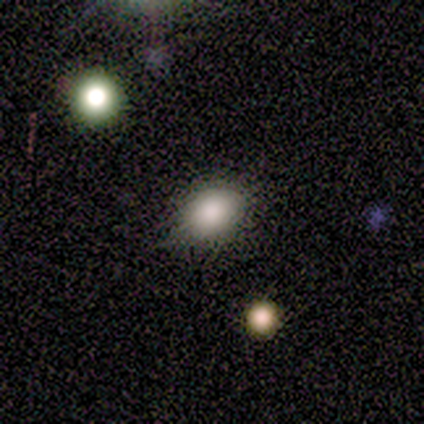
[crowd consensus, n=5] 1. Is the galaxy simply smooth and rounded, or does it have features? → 60% smooth, 20% featured or disk, 20% star or artifact.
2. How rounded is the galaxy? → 100% in between, 0% round, 0% cigar-shaped.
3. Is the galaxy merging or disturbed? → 75% none, 25% minor disturbance, 0% major disturbance, 0% merger.